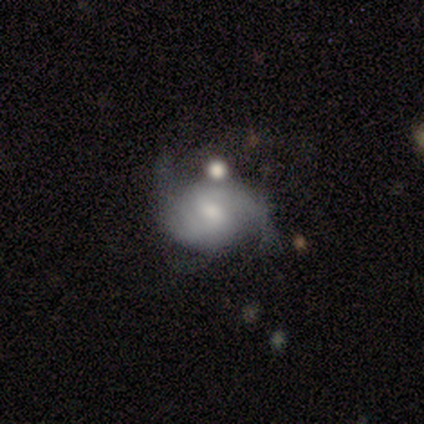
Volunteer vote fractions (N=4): Smooth or featured: featured or disk — 75% (smooth — 25%)
Edge-on disk: no — 100%
Bar: weak — 67% (no — 33%)
Spiral arms: yes — 100%
Spiral winding: tight — 33% (tied with medium — 33%; loose — 33%)
Spiral arm count: 2 — 100%
Bulge size: small — 100%
Merging: none — 75% (minor disturbance — 25%)